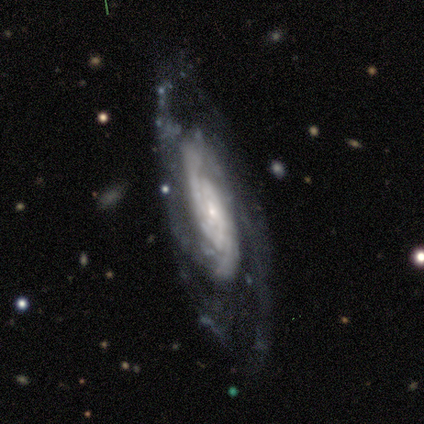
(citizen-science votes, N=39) Overall: featured or disk (87%). Edge-on disk: no (97%). Bar: no (70%). Spiral arms: yes (97%). Spiral arm count: 2 (38%; can't tell 25%). Spiral winding: tight (75%). Bulge size: small (88%). Merging: none (69%).